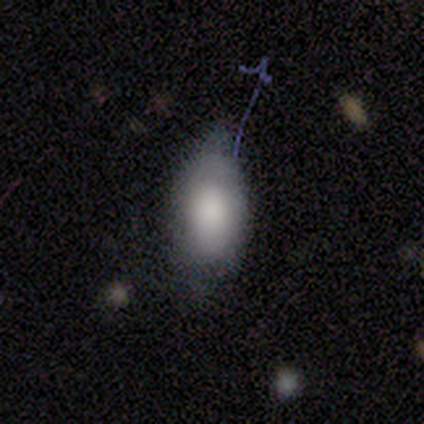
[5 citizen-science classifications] Smooth or featured? smooth (80%)
How rounded? in between (75%)
Merging? minor disturbance (60%)